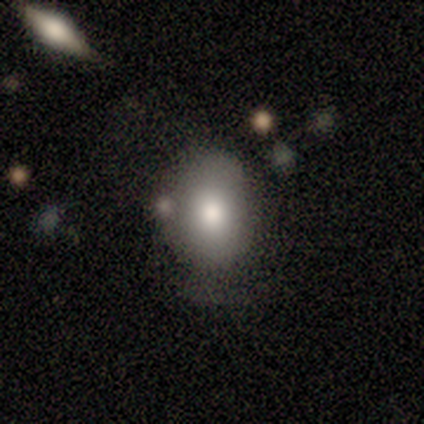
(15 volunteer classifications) smooth 80%, star or artifact 13%, featured or disk 7%. Down the decision tree: how rounded — in between (83%); merging — none (46%, tied with minor disturbance).